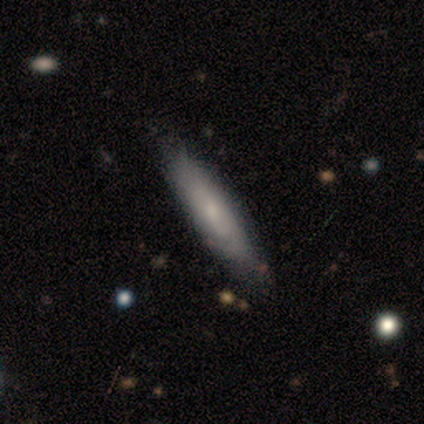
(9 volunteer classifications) Smooth or featured? smooth (67%)
How rounded? cigar-shaped (100%)
Merging? none (100%)